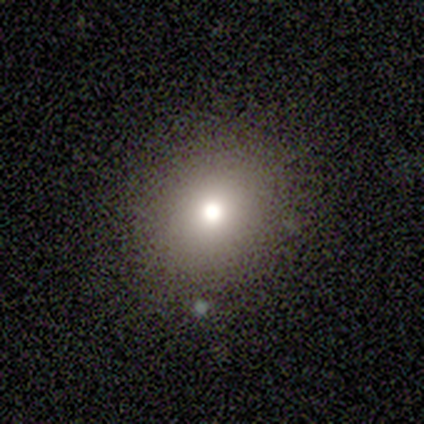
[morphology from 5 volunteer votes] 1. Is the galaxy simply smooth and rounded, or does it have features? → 100% smooth, 0% featured or disk, 0% star or artifact.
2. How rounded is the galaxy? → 100% round, 0% in between, 0% cigar-shaped.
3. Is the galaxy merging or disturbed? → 100% none, 0% minor disturbance, 0% major disturbance, 0% merger.